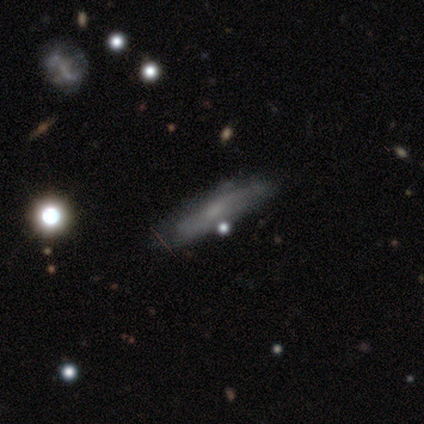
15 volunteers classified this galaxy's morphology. This is likely a featured or disk galaxy (67%). It is likely viewed edge-on (60%). Edge-on bulge: possibly none (50%, tied with rounded). Merging: possibly none (57%).